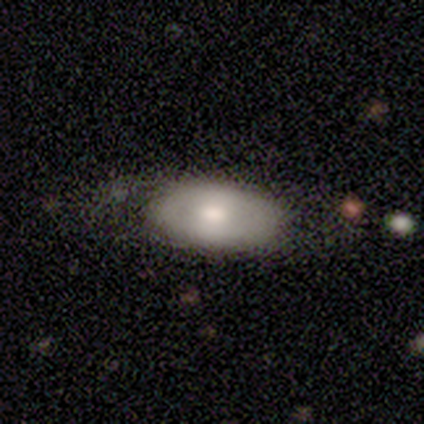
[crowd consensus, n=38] A featured or disk galaxy (55%) with no bar (69%), no spiral arms (88%) and a moderate central bulge (75%). Merging: none (56%).